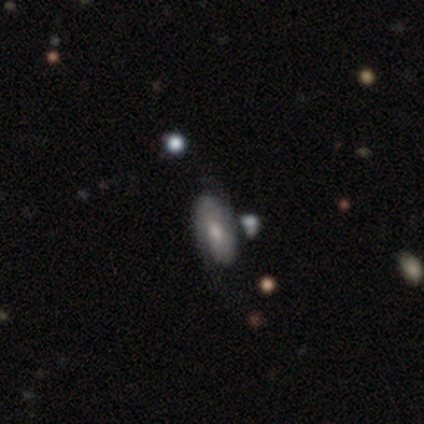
Smooth or featured? featured or disk (80%)
Edge-on disk? no (100%)
Bar? no (75%)
Spiral arms? yes (50%, tied with no)
Spiral winding? tight (50%, tied with loose)
Spiral arm count? 2 (50%, tied with can't tell)
Bulge size? moderate (100%)
Merging? none (60%)